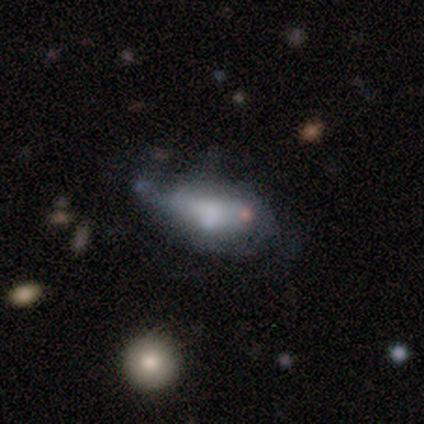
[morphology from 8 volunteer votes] Smooth or featured?
  - smooth: 62% *
  - featured or disk: 38%
  - star or artifact: 0%
How rounded?
  - in between: 40% * (tied)
  - cigar-shaped: 40% * (tied)
  - round: 20%
Merging?
  - major disturbance: 50% *
  - none: 25%
  - minor disturbance: 25%
  - merger: 0%